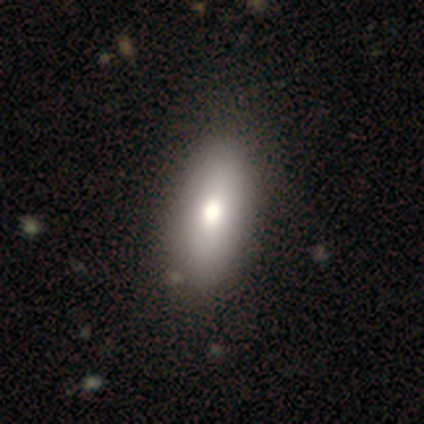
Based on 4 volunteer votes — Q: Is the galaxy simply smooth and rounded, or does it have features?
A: smooth — 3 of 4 (75%).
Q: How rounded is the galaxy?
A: round — 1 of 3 (33%, tied with in between and cigar-shaped).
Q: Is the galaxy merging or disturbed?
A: none — 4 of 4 (100%).